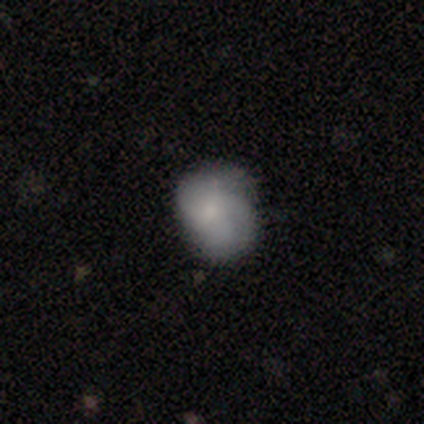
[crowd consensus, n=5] smooth-or-featured: smooth: 60% | featured or disk: 40% | star or artifact: 0%
  how-rounded: round: 67% | in between: 33% | cigar-shaped: 0%
  merging: none: 60% | minor disturbance: 20% | major disturbance: 20% | merger: 0%